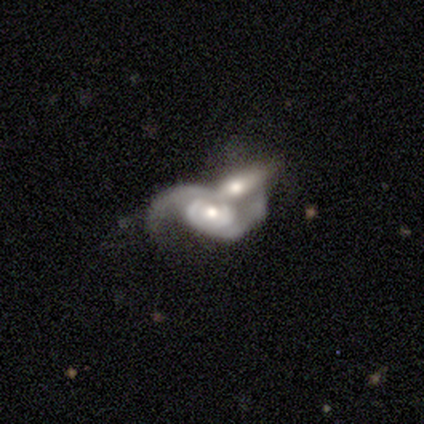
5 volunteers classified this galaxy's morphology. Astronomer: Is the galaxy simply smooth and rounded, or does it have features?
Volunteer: featured or disk — 100%.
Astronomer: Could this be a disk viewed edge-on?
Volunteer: no — 100%.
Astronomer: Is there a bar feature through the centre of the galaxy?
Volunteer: no — 60% (runner-up: weak, 40%).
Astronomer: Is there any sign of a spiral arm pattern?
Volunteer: yes — 100%.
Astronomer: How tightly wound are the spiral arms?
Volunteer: medium — 60% (runner-up: loose, 40%).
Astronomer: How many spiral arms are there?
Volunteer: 2 — 80%.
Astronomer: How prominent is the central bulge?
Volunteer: moderate — 60% (runner-up: small, 40%).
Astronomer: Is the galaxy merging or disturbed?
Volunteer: merger — 100%.